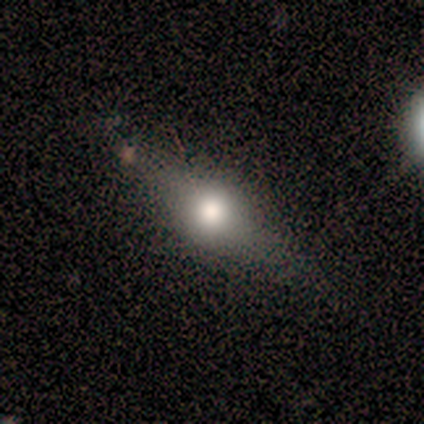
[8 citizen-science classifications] Q: Smooth or featured?
A: featured or disk (38%); tied with: star or artifact (38%)
Q: Edge-on disk?
A: yes (67%); runner-up: no (33%)
Q: Edge-on bulge?
A: rounded (100%)
Q: Merging?
A: none (100%)